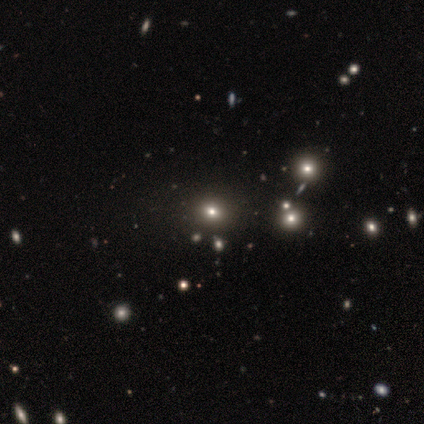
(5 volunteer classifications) Smooth or featured? smooth (80%)
How rounded? round (50%, tied with in between)
Merging? none (75%)